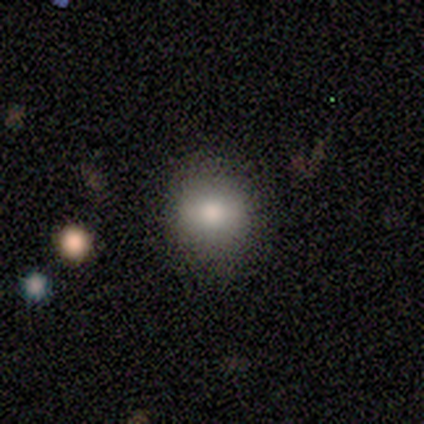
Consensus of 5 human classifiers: Smooth or featured? 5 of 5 (100%) said smooth. How rounded? 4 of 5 (80%) said round. Merging? 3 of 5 (60%) said none.